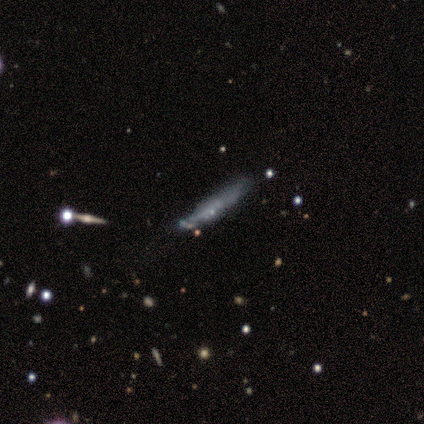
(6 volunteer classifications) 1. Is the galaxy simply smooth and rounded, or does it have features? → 83% smooth, 17% star or artifact, 0% featured or disk.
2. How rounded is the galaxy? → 100% cigar-shaped, 0% round, 0% in between.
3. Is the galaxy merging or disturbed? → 80% none, 20% major disturbance, 0% minor disturbance, 0% merger.